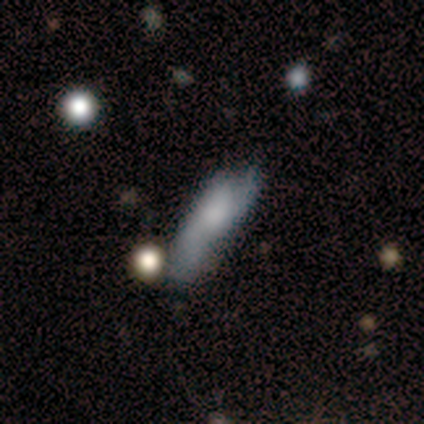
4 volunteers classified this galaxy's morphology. Volunteers were most divided on "merging": none: 50%, minor disturbance: 25%, major disturbance: 25%, merger: 0%. More confident: smooth or featured — smooth (100%); how rounded — in between (75%).